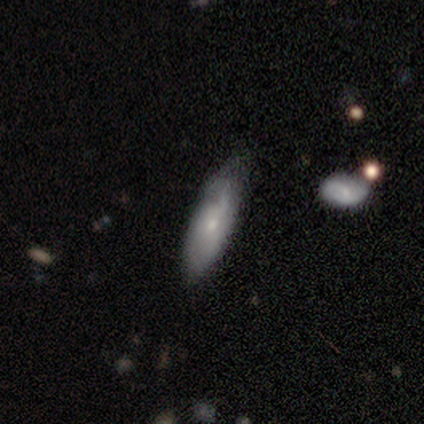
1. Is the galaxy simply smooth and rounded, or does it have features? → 62% smooth, 38% featured or disk, 0% star or artifact.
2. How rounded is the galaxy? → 60% cigar-shaped, 40% in between, 0% round.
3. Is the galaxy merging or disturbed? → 62% minor disturbance, 38% none, 0% major disturbance, 0% merger.